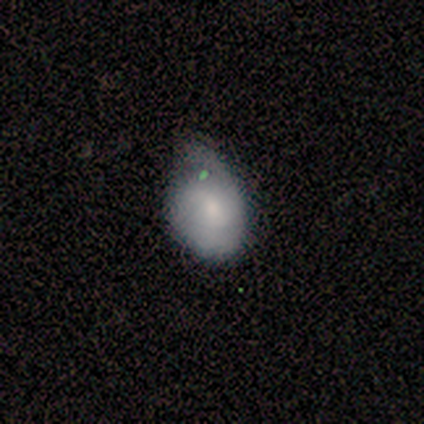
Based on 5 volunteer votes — Overall: smooth (60%; featured or disk 40%). How rounded: round (67%; in between 33%). Merging: minor disturbance (80%).